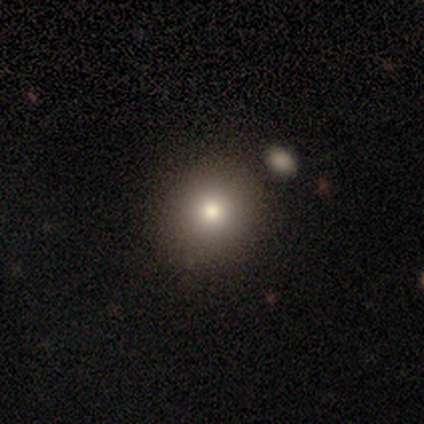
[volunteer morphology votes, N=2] smooth 50% (tied), featured or disk 50% (tied), star or artifact 0%. Down the decision tree: how rounded — round (100%); merging — none (50%, tied with minor disturbance).